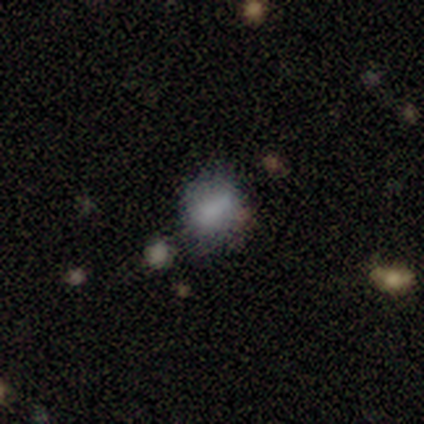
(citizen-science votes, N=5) A smooth galaxy with no disk features (80%) that is round (75%). Merging: none (75%).